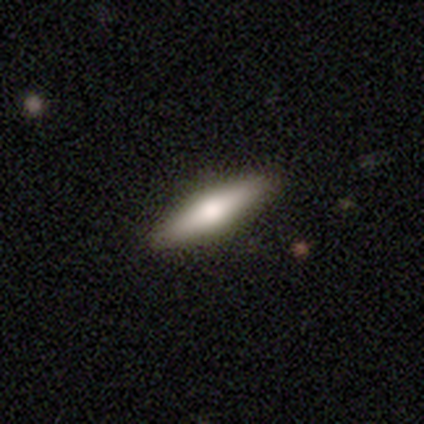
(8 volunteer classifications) smooth_or_featured: featured or disk (p=0.50) [alt: smooth p=0.25]
disk_edge_on: yes (p=0.75) [alt: no p=0.25]
edge_on_bulge: rounded (p=1.00)
merging: none (p=0.83) [alt: minor disturbance p=0.17]